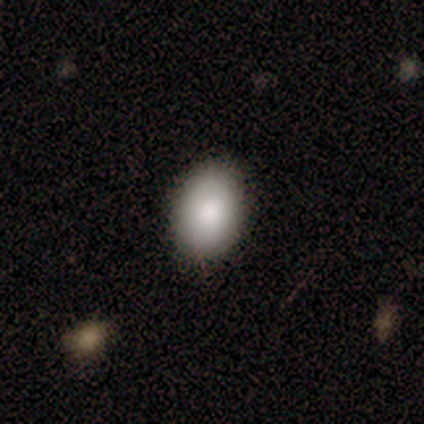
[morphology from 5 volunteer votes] smooth_or_featured: smooth (p=0.80) [alt: featured or disk p=0.20]
how_rounded: in between (p=0.75) [alt: round p=0.25]
merging: none (p=1.00)